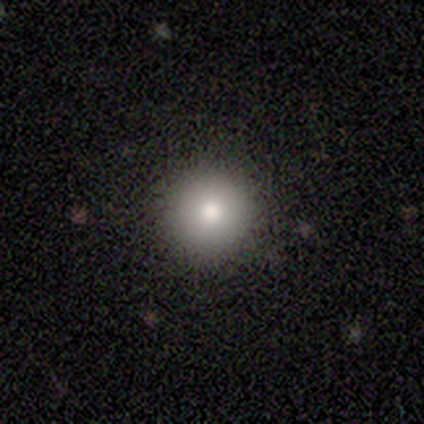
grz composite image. It shows a smooth galaxy with no disk features (80%) that is round (75%). Merging: none (75%).